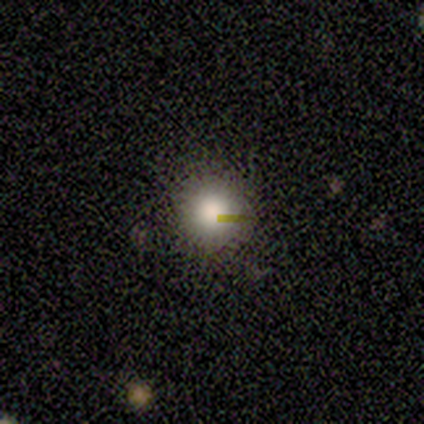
Smooth or featured? 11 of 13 (85%) said smooth. How rounded? 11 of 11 (100%) said round. Merging? 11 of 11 (100%) said none.